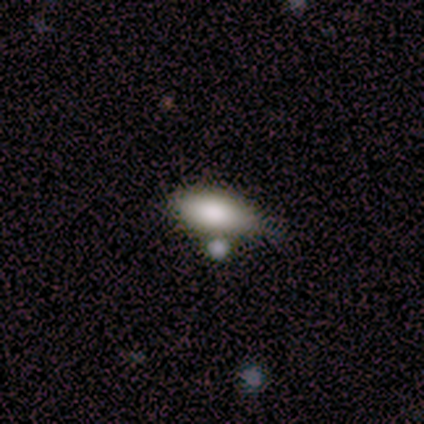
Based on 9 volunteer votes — Smooth or featured?
  - smooth: 78% *
  - featured or disk: 22%
  - star or artifact: 0%
How rounded?
  - in between: 100% *
  - round: 0%
  - cigar-shaped: 0%
Merging?
  - minor disturbance: 67% *
  - none: 22%
  - major disturbance: 11%
  - merger: 0%